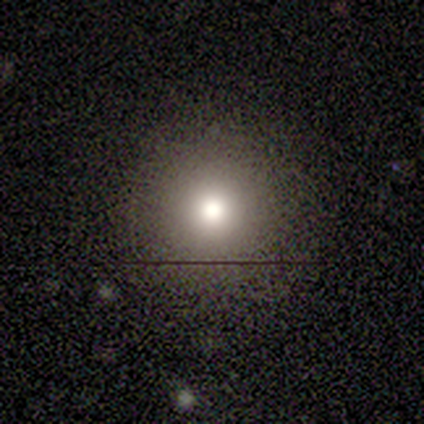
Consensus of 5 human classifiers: featured or disk 80%, smooth 20%, star or artifact 0%. Down the decision tree: edge-on disk — no (75%); bar — no (100%); spiral arms — no (100%); bulge size — moderate (67%); merging — none (100%).